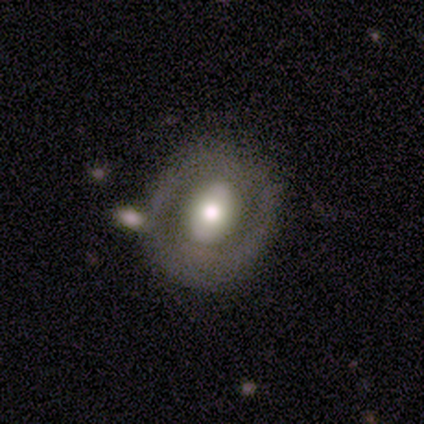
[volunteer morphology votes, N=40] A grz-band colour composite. It shows a featured or disk galaxy (57%) with no bar (43%), no spiral arms (81%) and a moderate central bulge (67%). Merging: none (60%).